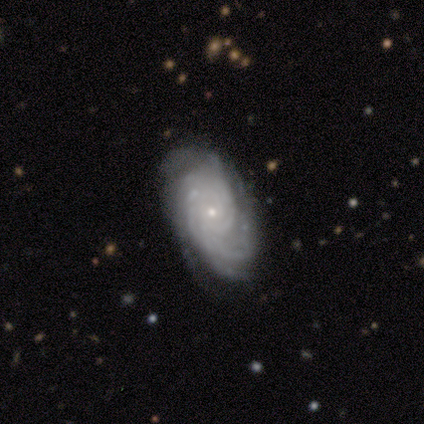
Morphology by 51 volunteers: Overall: featured or disk (96%). Edge-on disk: no (96%). Bar: no (91%). Spiral arms: yes (100%). Spiral arm count: can't tell (43%; more than 4 26%). Spiral winding: tight (72%). Bulge size: small (91%). Merging: none (72%).